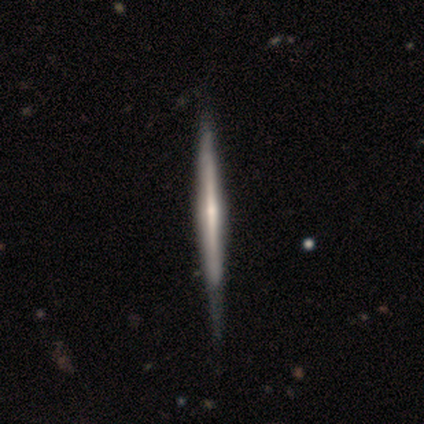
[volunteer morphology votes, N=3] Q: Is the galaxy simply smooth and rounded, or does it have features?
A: featured or disk — 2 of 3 (67%).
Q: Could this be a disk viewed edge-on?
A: yes — 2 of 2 (100%).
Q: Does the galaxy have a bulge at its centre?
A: rounded — 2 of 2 (100%).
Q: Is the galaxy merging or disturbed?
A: none — 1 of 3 (33%, tied with minor disturbance and merger).